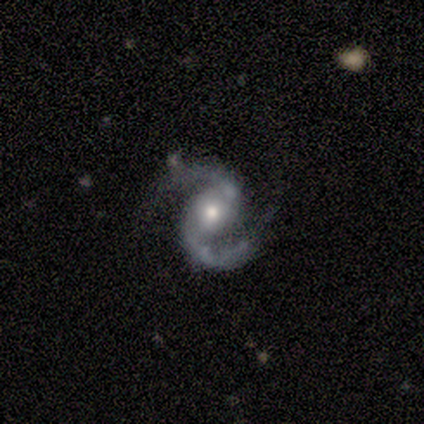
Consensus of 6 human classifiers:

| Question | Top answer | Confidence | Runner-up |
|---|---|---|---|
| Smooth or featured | featured or disk | 100% | — |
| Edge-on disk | no | 67% | yes (33%) |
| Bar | weak | 50% | tied: no (50%) |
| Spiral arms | yes | 100% | — |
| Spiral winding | medium | 75% | loose (25%) |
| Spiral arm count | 2 | 75% | 1 (25%) |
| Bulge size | small | 75% | moderate (25%) |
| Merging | none | 67% | major disturbance (17%) |